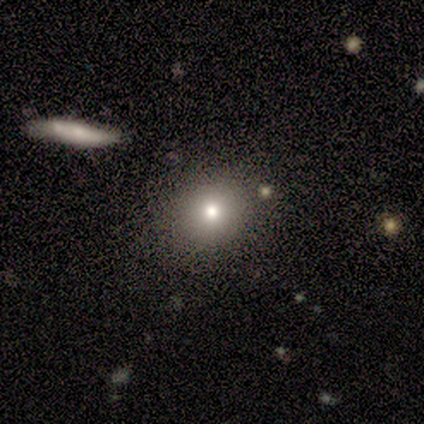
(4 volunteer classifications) smooth_or_featured: smooth (p=1.00)
how_rounded: round (p=0.75) [alt: in between p=0.25]
merging: none (p=1.00)